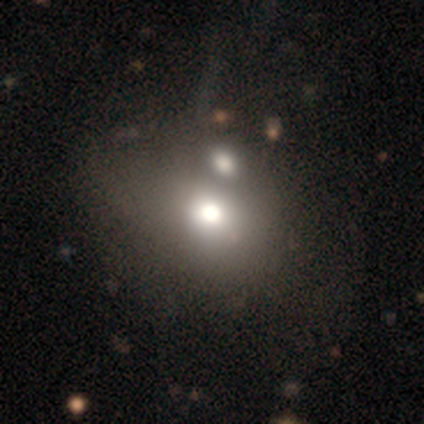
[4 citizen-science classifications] This is likely a smooth galaxy (75%). How rounded: clearly in between (100%). Merging: possibly minor disturbance (50%).